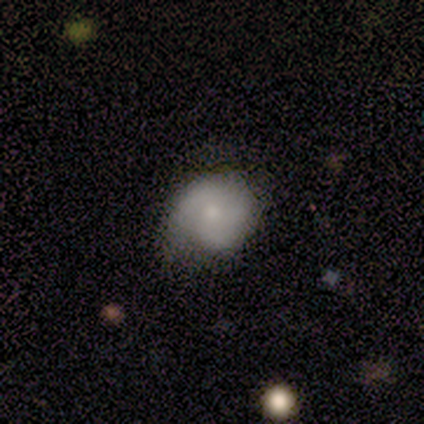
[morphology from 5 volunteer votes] A smooth galaxy with no disk features (60%) that is round (100%). Merging: none (67%).